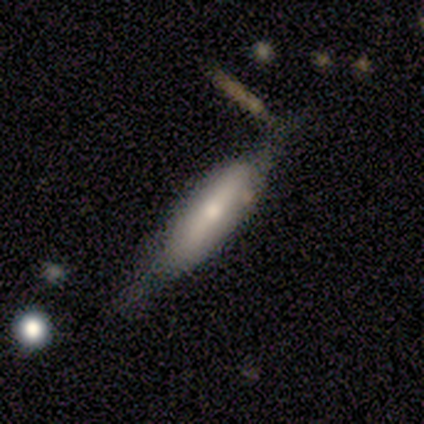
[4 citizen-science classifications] A smooth galaxy with no disk features (50%, tied with featured or disk) that is cigar-shaped (100%).

Vote fractions:
- Smooth or featured? smooth: 50% (tied) / featured or disk: 50% (tied) / star or artifact: 0%
- How rounded? cigar-shaped: 100% / round: 0% / in between: 0%
- Merging? none: 100% / minor disturbance: 0% / major disturbance: 0% / merger: 0%